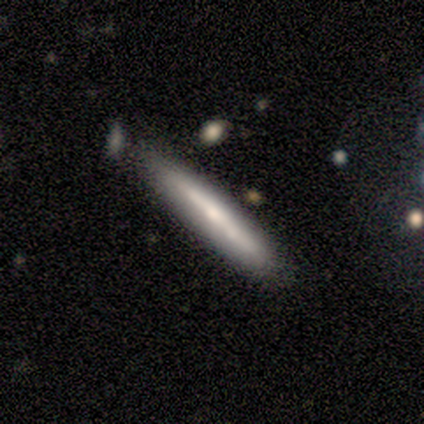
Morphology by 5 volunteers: This is clearly a smooth galaxy (100%). How rounded: clearly cigar-shaped (80%). Merging: likely none (60%).